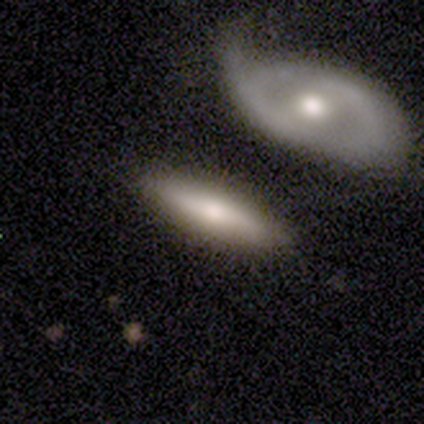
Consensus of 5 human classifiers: smooth 60%, featured or disk 40%, star or artifact 0%. Down the decision tree: how rounded — cigar-shaped (100%); merging — none (100%).